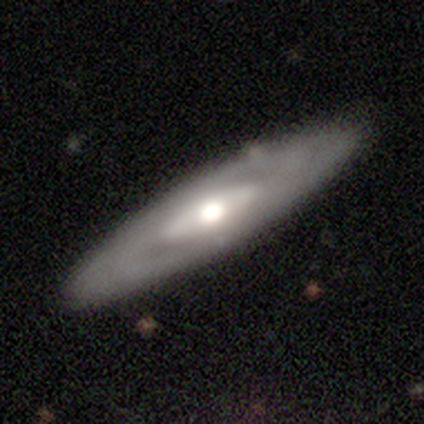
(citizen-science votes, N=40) Overall: featured or disk (75%). Edge-on disk: no (63%; yes 37%). Bar: no (89%). Spiral arms: no (53%; yes 47%). Bulge size: moderate (74%). Merging: none (79%).